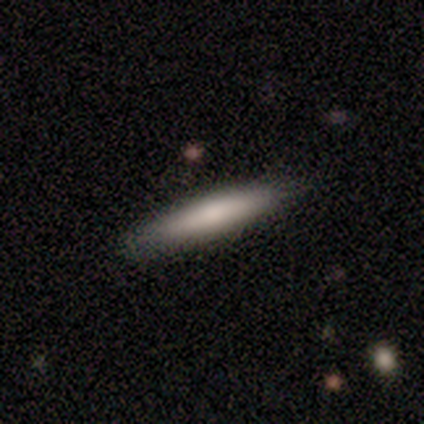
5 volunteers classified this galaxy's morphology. This is clearly a smooth galaxy (100%). How rounded: clearly cigar-shaped (100%). Merging: clearly none (80%).